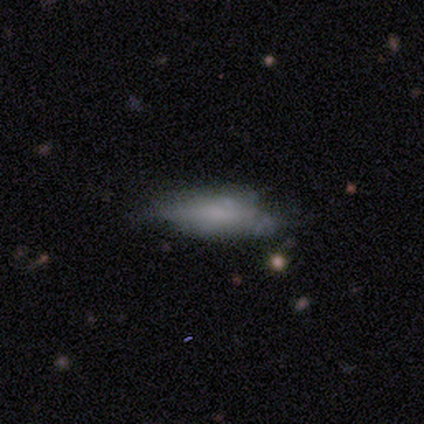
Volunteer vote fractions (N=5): A smooth galaxy with no disk features (60%) that is in between round and cigar-shaped (100%). Merging: minor disturbance (50%).